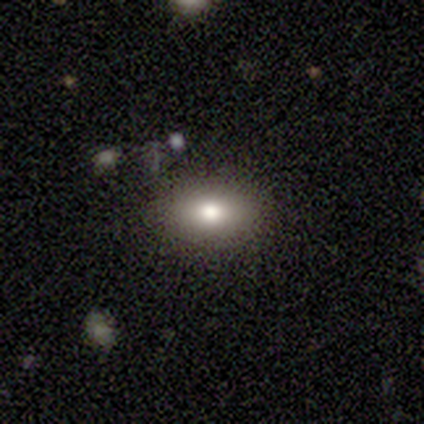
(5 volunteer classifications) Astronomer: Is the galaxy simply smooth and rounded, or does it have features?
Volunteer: smooth — 60% (runner-up: featured or disk, 40%).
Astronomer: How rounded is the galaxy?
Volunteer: in between — 67%.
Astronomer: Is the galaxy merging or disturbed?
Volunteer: none — 100%.